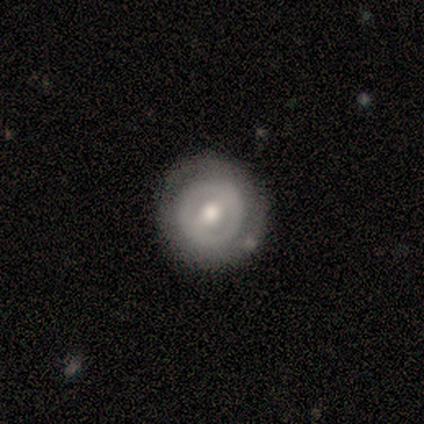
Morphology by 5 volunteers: A featured or disk galaxy (100%) with a weak bar (60%), 2 (67%) tight (67%) spiral arms (60%) and a large central bulge (40%, tied with moderate).

Vote fractions:
- Smooth or featured? featured or disk: 100% / smooth: 0% / star or artifact: 0%
- Edge-on disk? no: 100% / yes: 0%
- Bar? weak: 60% / strong: 20% / no: 20%
- Spiral arms? yes: 60% / no: 40%
- Spiral winding? tight: 67% / loose: 33% / medium: 0%
- Spiral arm count? 2: 67% / can't tell: 33% / 1: 0% / 3: 0% / 4: 0% / more than 4: 0%
- Bulge size? large: 40% (tied) / moderate: 40% (tied) / small: 20% / dominant: 0% / none: 0%
- Merging? none: 80% / minor disturbance: 20% / major disturbance: 0% / merger: 0%